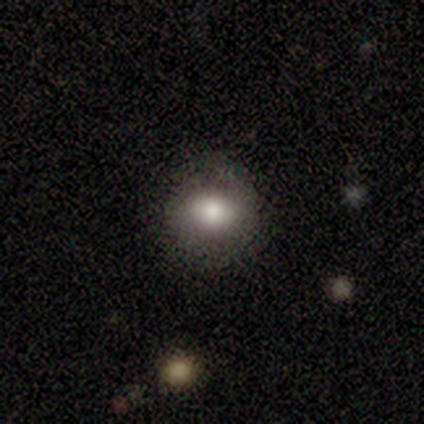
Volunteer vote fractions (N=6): Volunteers were most divided on "smooth or featured": smooth: 50%, featured or disk: 33%, star or artifact: 17%. More confident: merging — none (80%); how rounded — round (67%).